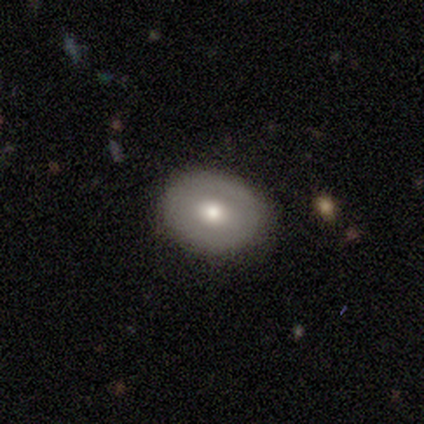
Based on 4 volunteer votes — A smooth galaxy with no disk features (50%, tied with featured or disk) that is in between round and cigar-shaped (100%). Merging: none (100%).